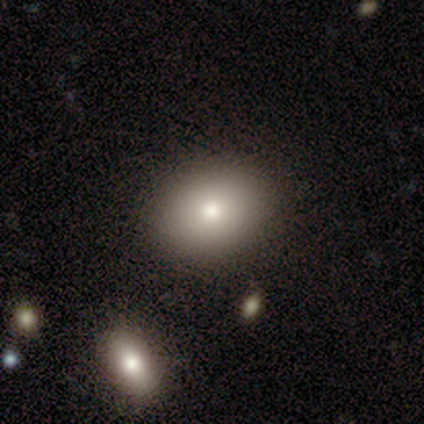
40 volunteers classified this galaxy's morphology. This appears to be a smooth galaxy with no disk features (88%) that is round (51%). Merging: none (54%).